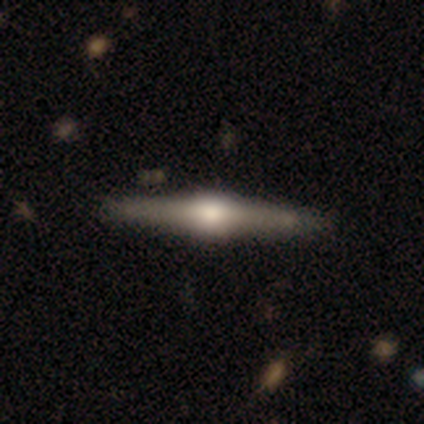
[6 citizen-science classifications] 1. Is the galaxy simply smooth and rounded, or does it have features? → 83% featured or disk, 17% smooth, 0% star or artifact.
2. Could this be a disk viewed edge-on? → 100% yes, 0% no.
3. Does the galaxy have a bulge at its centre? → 80% rounded, 20% boxy, 0% none.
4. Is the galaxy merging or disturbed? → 100% none, 0% minor disturbance, 0% major disturbance, 0% merger.